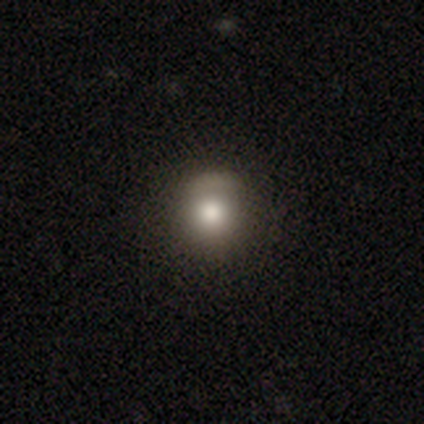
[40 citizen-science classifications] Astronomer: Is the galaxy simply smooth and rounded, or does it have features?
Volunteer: smooth — 60%.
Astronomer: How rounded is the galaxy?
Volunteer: round — 92%.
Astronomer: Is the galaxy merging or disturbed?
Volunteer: none — 52%.